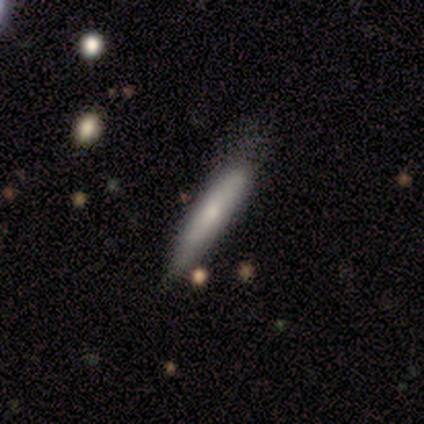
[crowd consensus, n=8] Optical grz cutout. It shows a smooth galaxy with no disk features (88%) that is cigar-shaped (86%). Merging: none (50%).